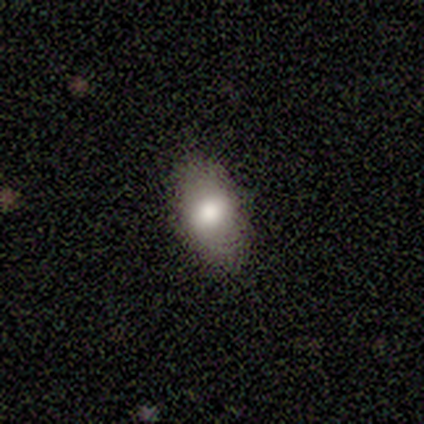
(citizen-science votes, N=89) A smooth galaxy with no disk features (79%) that is in between round and cigar-shaped (96%).

Vote fractions:
- Smooth or featured? smooth: 79% / featured or disk: 13% / star or artifact: 8%
- How rounded? in between: 96% / round: 3% / cigar-shaped: 1%
- Merging? none: 89% / minor disturbance: 9% / major disturbance: 2% / merger: 0%